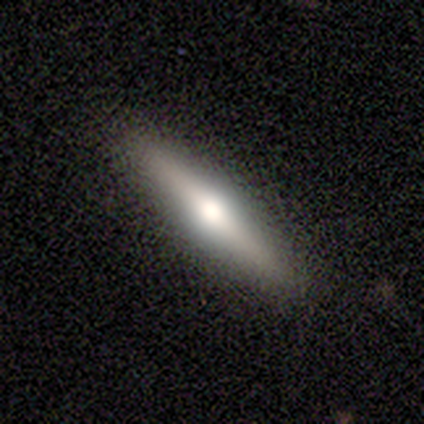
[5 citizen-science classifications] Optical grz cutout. It shows a smooth galaxy with no disk features (60%) that is cigar-shaped (100%). Merging: none (100%).